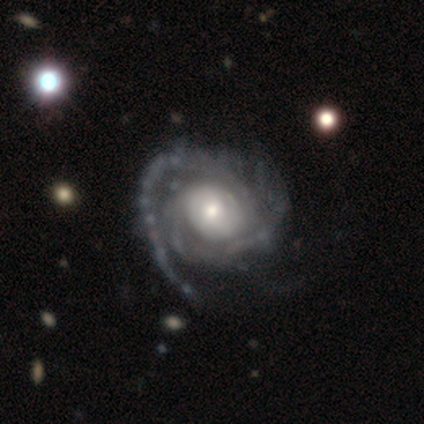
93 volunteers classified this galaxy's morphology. Smooth or featured?
  - featured or disk: 86% *
  - smooth: 9%
  - star or artifact: 5%
Edge-on disk?
  - no: 99% *
  - yes: 1%
Bar?
  - no: 68% *
  - weak: 23%
  - strong: 9%
Spiral arms?
  - yes: 92% *
  - no: 8%
Spiral winding?
  - tight: 63% *
  - medium: 27%
  - loose: 10%
Spiral arm count?
  - 2: 36% *
  - can't tell: 27%
  - 1: 12%
  - 3: 12%
  - more than 4: 7%
  - 4: 5%
Bulge size?
  - moderate: 47% *
  - small: 39%
  - large: 13%
  - none: 1%
  - dominant: 0%
Merging?
  - none: 58% *
  - major disturbance: 24%
  - minor disturbance: 17%
  - merger: 1%